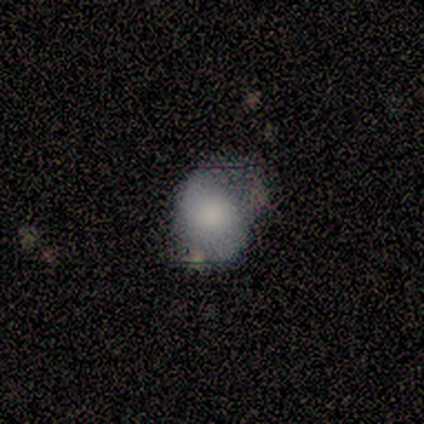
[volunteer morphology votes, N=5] smooth 40% (tied), star or artifact 40% (tied), featured or disk 20%. Down the decision tree: how rounded — round (50%, tied with in between); merging — minor disturbance (67%).